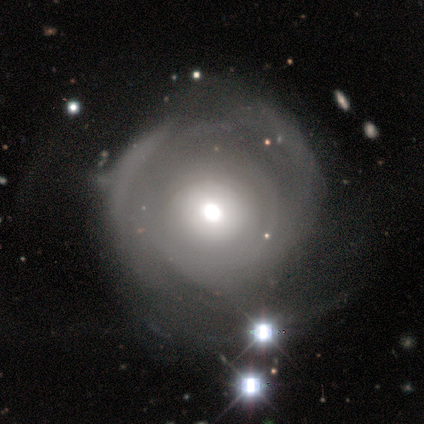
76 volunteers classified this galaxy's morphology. Smooth or featured?
  - featured or disk: 70% *
  - smooth: 22%
  - star or artifact: 8%
Edge-on disk?
  - no: 96% *
  - yes: 4%
Bar?
  - no: 96% *
  - weak: 4%
  - strong: 0%
Spiral arms?
  - yes: 71% *
  - no: 29%
Spiral winding?
  - tight: 78% *
  - medium: 14%
  - loose: 8%
Spiral arm count?
  - can't tell: 67% *
  - 1: 14%
  - 2: 8%
  - 3: 6%
  - more than 4: 6%
  - 4: 0%
Bulge size?
  - moderate: 55% *
  - large: 31%
  - dominant: 8%
  - small: 6%
  - none: 0%
Merging?
  - none: 46% *
  - minor disturbance: 27%
  - major disturbance: 21%
  - merger: 6%